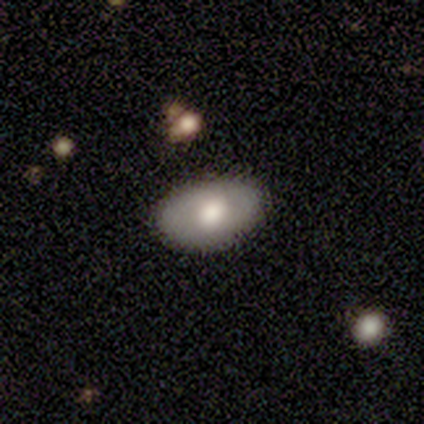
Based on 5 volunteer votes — A featured or disk galaxy (60%) with no bar (100%), no spiral arms (100%) and a moderate central bulge (67%). Merging: none (80%).